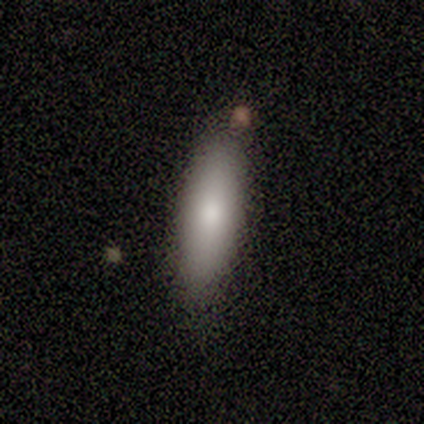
smooth-or-featured: smooth: 80% | star or artifact: 20% | featured or disk: 0%
  how-rounded: in between: 50% (tied) | cigar-shaped: 50% (tied) | round: 0%
  merging: none: 100% | minor disturbance: 0% | major disturbance: 0% | merger: 0%